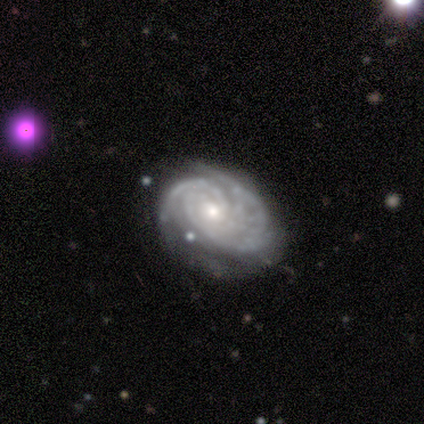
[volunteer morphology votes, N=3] smooth_or_featured: featured or disk (p=1.00)
disk_edge_on: no (p=1.00)
bar: no (p=0.67) [alt: weak p=0.33]
has_spiral_arms: yes (p=1.00)
spiral_winding: tight (p=0.67) [alt: loose p=0.33]
spiral_arm_count: 2 (p=0.33) [tied with: 3 p=0.33, more than 4 p=0.33]
bulge_size: small (p=0.67) [alt: moderate p=0.33]
merging: none (p=0.33) [tied with: minor disturbance p=0.33, major disturbance p=0.33]